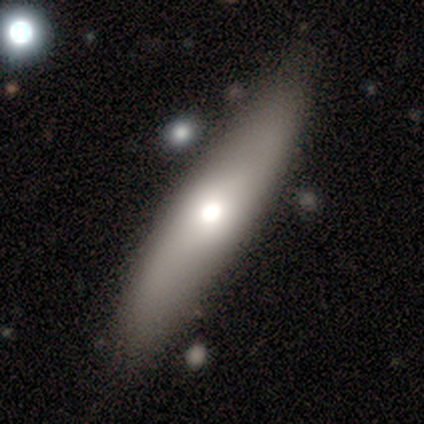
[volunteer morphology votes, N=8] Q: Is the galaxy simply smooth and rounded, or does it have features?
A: smooth — 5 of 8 (62%).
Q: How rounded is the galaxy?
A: cigar-shaped — 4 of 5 (80%).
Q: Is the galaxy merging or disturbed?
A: none — 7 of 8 (88%).